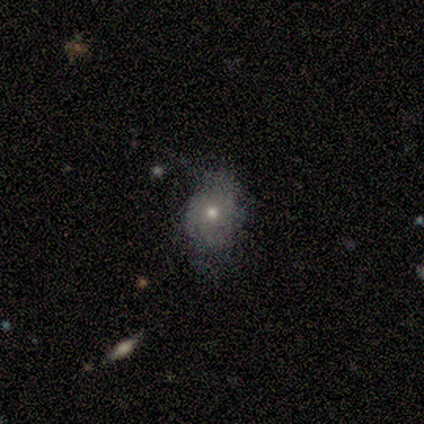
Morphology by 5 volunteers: Volunteers were most divided on "bulge size" (2-way tie): moderate: 40%, small: 40%, large: 20%, dominant: 0%, none: 0%. Remaining: smooth or featured — featured or disk (100%); edge-on disk — no (100%); spiral arms — yes (100%); bar — no (80%); spiral winding — tight (60%); merging — none (60%); spiral arm count — 4 (40%).